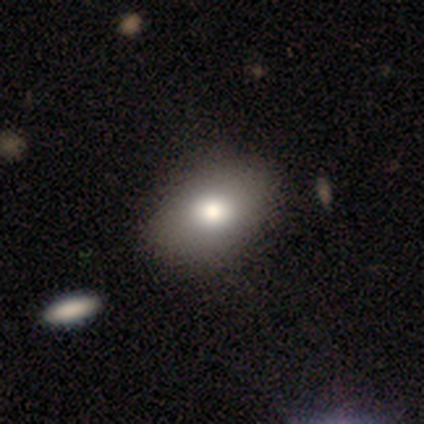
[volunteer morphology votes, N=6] Smooth or featured: smooth — 83% (star or artifact — 17%)
How rounded: in between — 80% (round — 20%)
Merging: none — 80% (minor disturbance — 20%)